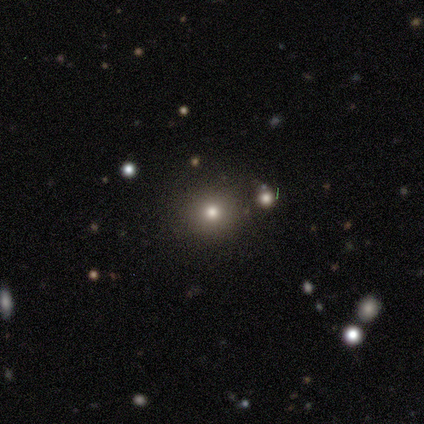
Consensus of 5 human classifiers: Overall: star or artifact (60%; smooth 40%).